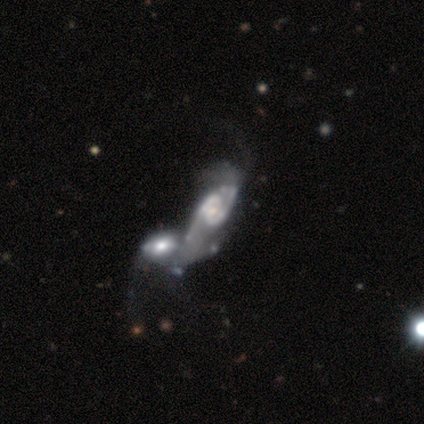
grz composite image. It shows a featured or disk galaxy (91%) with no bar (80%), 2 (89%) medium (67%) spiral arms (90%) and a small central bulge (80%). Merging: merger (91%).